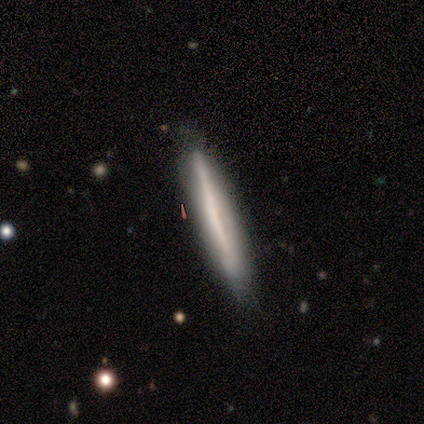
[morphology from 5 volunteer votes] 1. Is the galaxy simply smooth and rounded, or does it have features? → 60% smooth, 40% featured or disk, 0% star or artifact.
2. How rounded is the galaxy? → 100% cigar-shaped, 0% round, 0% in between.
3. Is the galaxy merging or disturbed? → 100% none, 0% minor disturbance, 0% major disturbance, 0% merger.